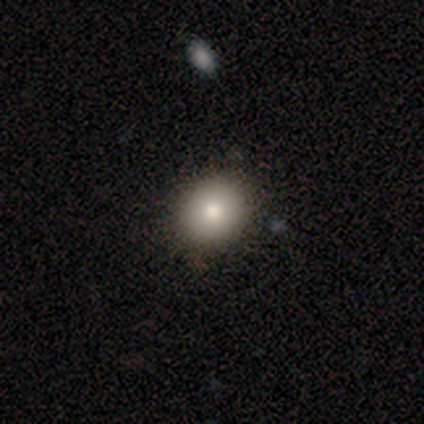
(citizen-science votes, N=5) This appears to be a smooth galaxy with no disk features (80%) that is round (75%). Merging: none (100%).